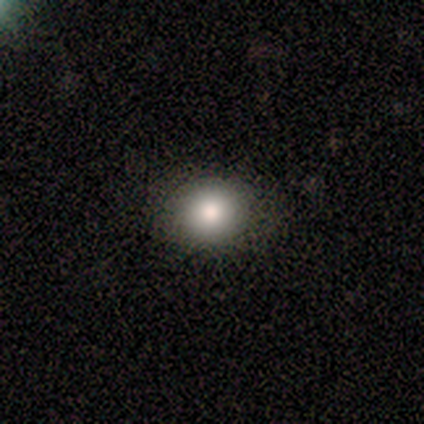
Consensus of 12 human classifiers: Smooth or featured? 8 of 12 (67%) said smooth. How rounded? 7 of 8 (88%) said round. Merging? 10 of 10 (100%) said none.